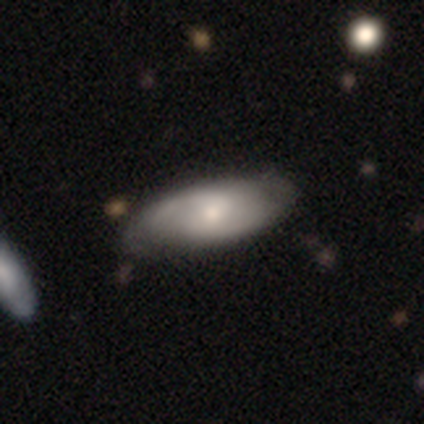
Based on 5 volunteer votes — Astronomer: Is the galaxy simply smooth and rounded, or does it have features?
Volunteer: featured or disk — 80%.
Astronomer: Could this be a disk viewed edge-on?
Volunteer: no — 75%.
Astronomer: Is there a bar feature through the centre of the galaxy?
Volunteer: strong — 33%, tied with weak and no at 33%.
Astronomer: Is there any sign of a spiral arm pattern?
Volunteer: yes — 100%.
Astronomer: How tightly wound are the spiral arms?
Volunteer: medium — 67%.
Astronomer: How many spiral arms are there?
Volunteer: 2 — 100%.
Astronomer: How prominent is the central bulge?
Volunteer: moderate — 100%.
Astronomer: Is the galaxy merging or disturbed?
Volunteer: none — 80%.